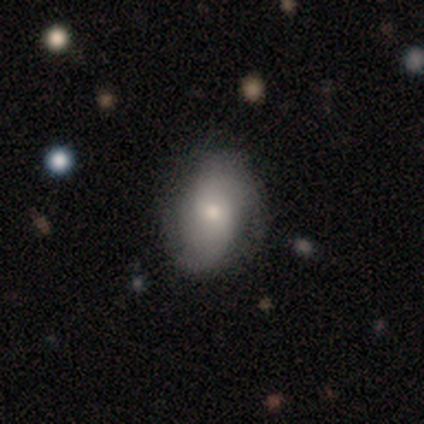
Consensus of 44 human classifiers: Overall: smooth (50%; featured or disk 45%). How rounded: in between (64%; round 32%). Merging: none (69%).